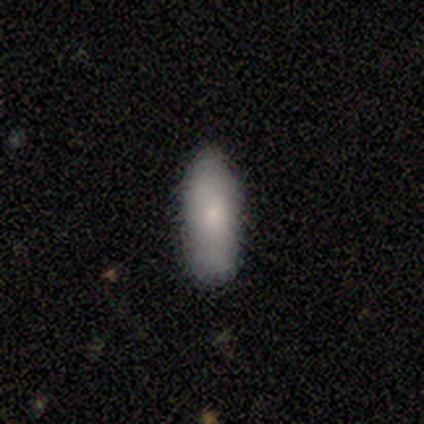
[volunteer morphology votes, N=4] This appears to be a smooth galaxy with no disk features (50%, tied with featured or disk) that is in between round and cigar-shaped (100%). Merging: none (75%).